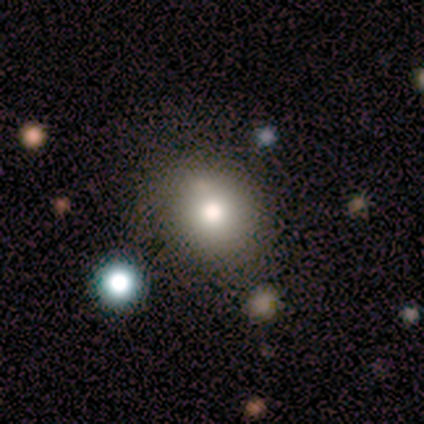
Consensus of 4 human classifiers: A smooth galaxy with no disk features (100%) that is round (50%, tied with in between). Merging: none (75%).